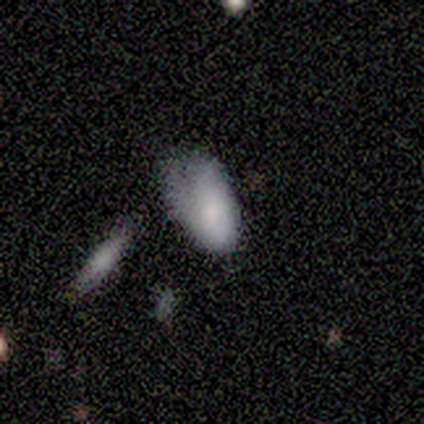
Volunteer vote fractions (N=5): Smooth or featured? 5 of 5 (100%) said smooth. How rounded? 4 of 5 (80%) said in between. Merging? 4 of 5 (80%) said minor disturbance.